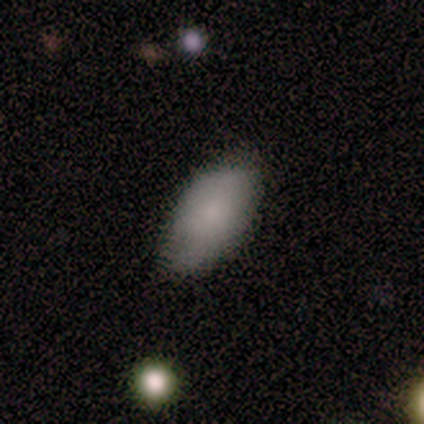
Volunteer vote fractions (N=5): A smooth galaxy with no disk features (60%) that is in between round and cigar-shaped (100%).

Vote fractions:
- Smooth or featured? smooth: 60% / featured or disk: 40% / star or artifact: 0%
- How rounded? in between: 100% / round: 0% / cigar-shaped: 0%
- Merging? none: 80% / minor disturbance: 20% / major disturbance: 0% / merger: 0%